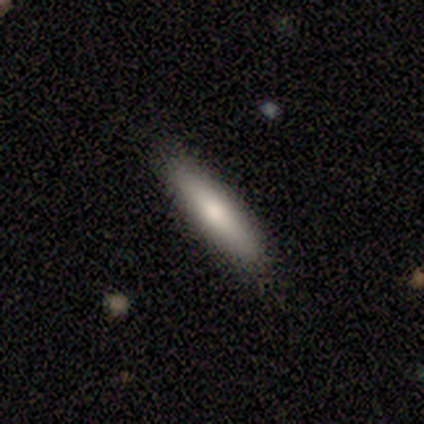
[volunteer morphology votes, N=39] type=smooth (77%); roundness=cigar-shaped (83%); merging=none (86%).